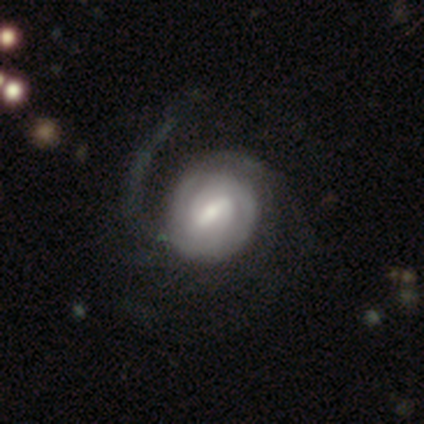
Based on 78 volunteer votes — This appears to be a featured or disk galaxy (90%) with a weak bar (63%), 2 (52%) tight (57%) spiral arms (90%) and a small central bulge (43%). Merging: none (26%).